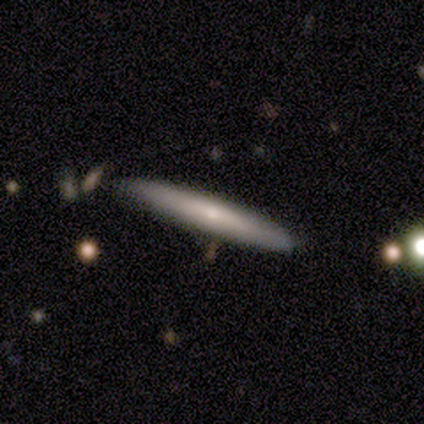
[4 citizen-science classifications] This is possibly a smooth galaxy (50%). How rounded: clearly cigar-shaped (100%). Merging: likely none (67%).